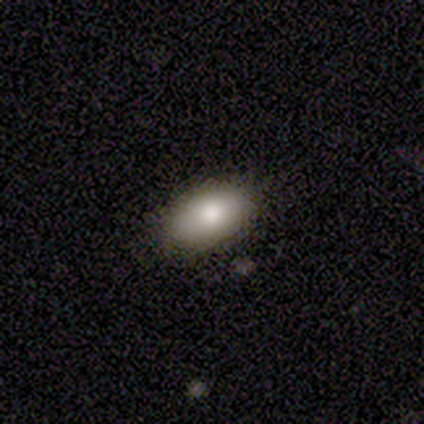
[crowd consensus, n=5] This is clearly a smooth galaxy (80%). How rounded: clearly in between (100%). Merging: clearly none (100%).